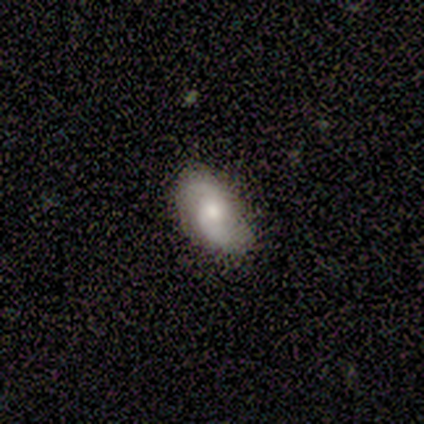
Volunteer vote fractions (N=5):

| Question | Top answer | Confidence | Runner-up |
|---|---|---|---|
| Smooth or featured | featured or disk | 60% | smooth (40%) |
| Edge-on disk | no | 100% | — |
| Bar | no | 67% | weak (33%) |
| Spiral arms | yes | 100% | — |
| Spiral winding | loose | 67% | tight (33%) |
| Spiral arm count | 2 | 100% | — |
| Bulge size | moderate | 100% | — |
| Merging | none | 80% | minor disturbance (20%) |